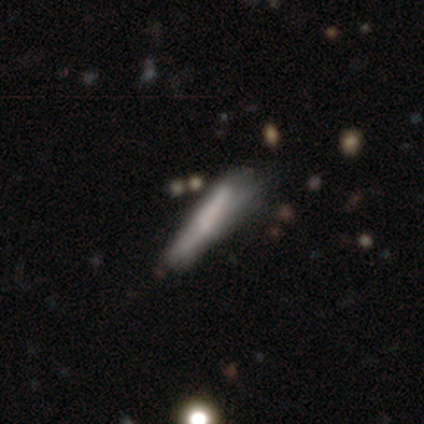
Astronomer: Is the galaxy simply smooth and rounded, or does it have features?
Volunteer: smooth — 50%, tied with featured or disk at 50%.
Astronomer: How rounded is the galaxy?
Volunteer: in between — 100%.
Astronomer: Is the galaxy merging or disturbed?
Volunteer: none — 100%.